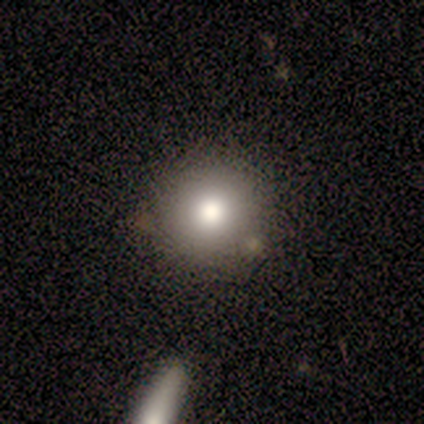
Smooth or featured: smooth — 75% (star or artifact — 25%)
How rounded: round — 100%
Merging: none — 100%